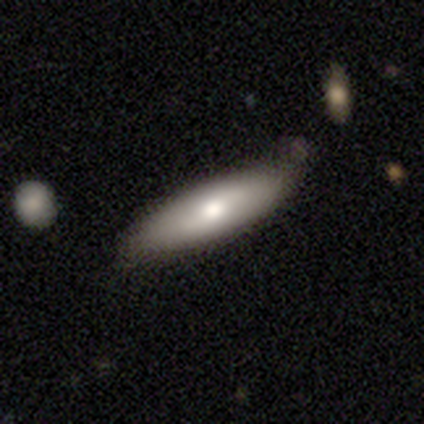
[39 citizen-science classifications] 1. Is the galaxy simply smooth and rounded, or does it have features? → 62% smooth, 36% featured or disk, 3% star or artifact.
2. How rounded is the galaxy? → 67% cigar-shaped, 33% in between, 0% round.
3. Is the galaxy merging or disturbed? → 55% none, 37% minor disturbance, 5% merger, 3% major disturbance.